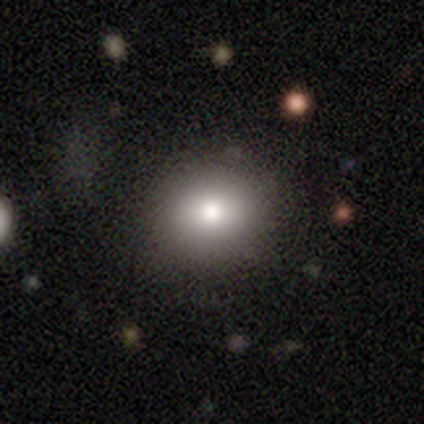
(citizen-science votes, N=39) smooth_or_featured: smooth (p=0.85) [alt: featured or disk p=0.15]
how_rounded: round (p=0.91) [alt: in between p=0.09]
merging: none (p=0.79) [alt: minor disturbance p=0.15]